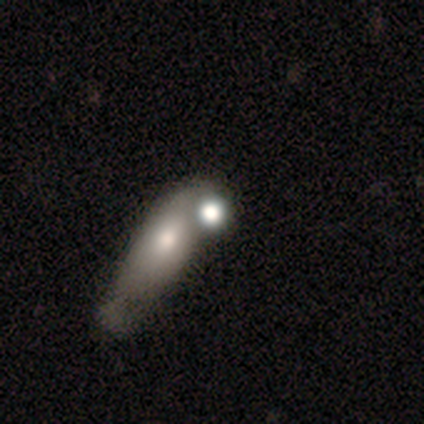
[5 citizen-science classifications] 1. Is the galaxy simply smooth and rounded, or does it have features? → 40% smooth (tied), 40% featured or disk (tied), 20% star or artifact.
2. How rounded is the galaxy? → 50% round (tied), 50% cigar-shaped (tied), 0% in between.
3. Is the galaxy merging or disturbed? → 100% merger, 0% none, 0% minor disturbance, 0% major disturbance.